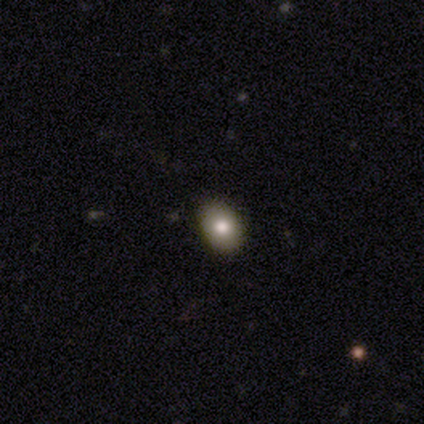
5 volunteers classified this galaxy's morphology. A smooth galaxy with no disk features (60%) that is in between round and cigar-shaped (100%).

Vote fractions:
- Smooth or featured? smooth: 60% / star or artifact: 40% / featured or disk: 0%
- How rounded? in between: 100% / round: 0% / cigar-shaped: 0%
- Merging? none: 100% / minor disturbance: 0% / major disturbance: 0% / merger: 0%